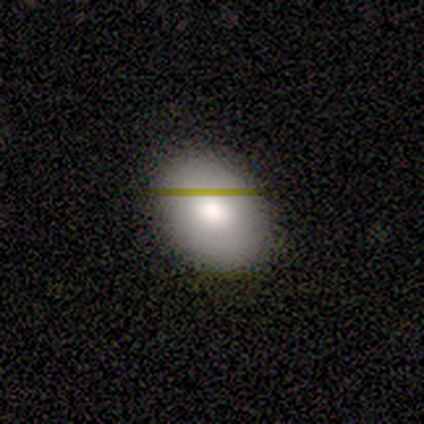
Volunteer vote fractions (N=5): smooth-or-featured: smooth: 60% | star or artifact: 40% | featured or disk: 0%
  how-rounded: in between: 100% | round: 0% | cigar-shaped: 0%
  merging: none: 67% | minor disturbance: 33% | major disturbance: 0% | merger: 0%